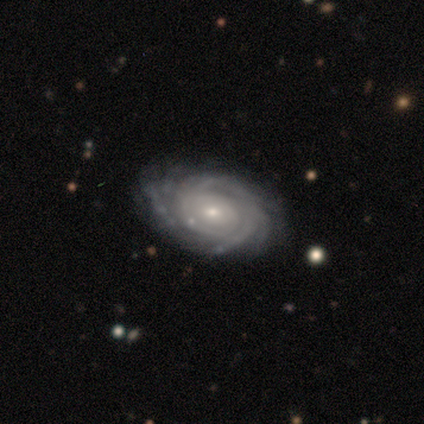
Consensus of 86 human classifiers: featured or disk 88%, smooth 9%, star or artifact 2%. Down the decision tree: edge-on disk — no (97%); bar — no (68%); spiral arms — yes (99%); spiral arm count — can't tell (36%); spiral winding — tight (84%); bulge size — small (73%); merging — none (86%).